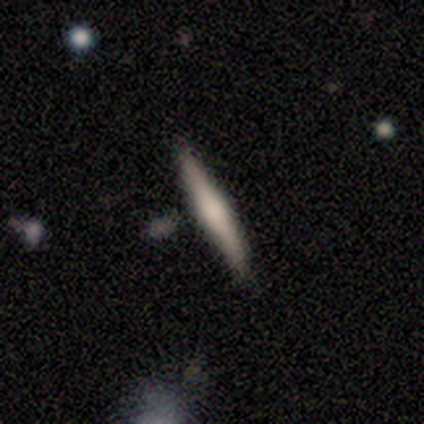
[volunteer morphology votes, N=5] smooth 80%, star or artifact 20%, featured or disk 0%. Down the decision tree: how rounded — cigar-shaped (100%); merging — none (100%).